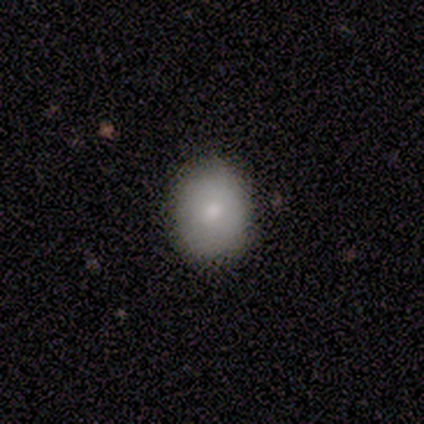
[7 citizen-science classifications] Smooth or featured? smooth (86%)
How rounded? round (50%, tied with in between)
Merging? none (86%)